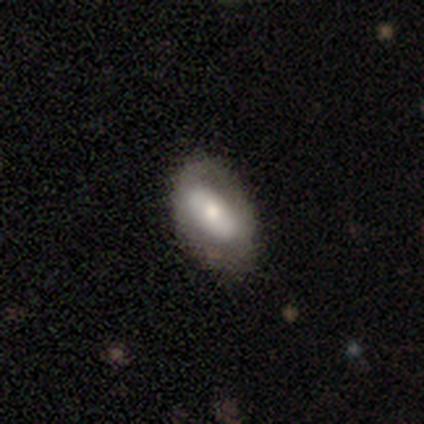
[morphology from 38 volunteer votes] Smooth or featured? featured or disk (58%)
Edge-on disk? no (95%)
Bar? no (52%)
Spiral arms? no (67%)
Bulge size? moderate (67%)
Merging? none (74%)